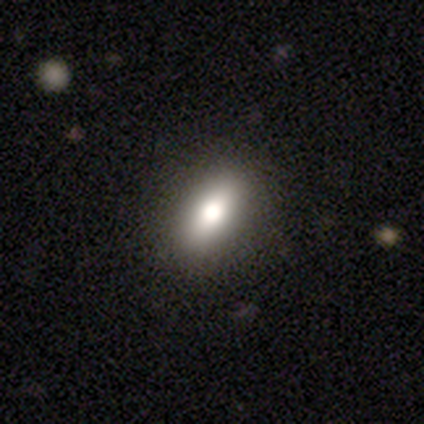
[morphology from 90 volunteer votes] This is likely a smooth galaxy (71%). How rounded: likely in between (80%). Merging: clearly none (91%).